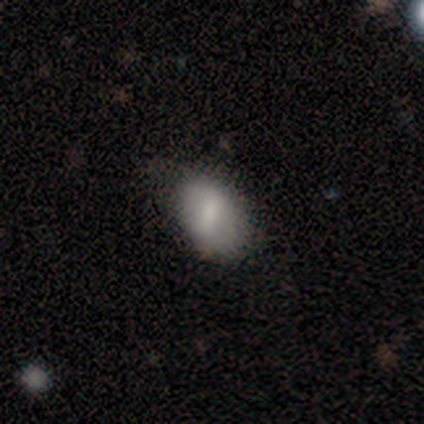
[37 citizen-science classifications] smooth-or-featured: smooth: 73% | featured or disk: 16% | star or artifact: 11%
  how-rounded: in between: 89% | round: 11% | cigar-shaped: 0%
  merging: none: 52% | minor disturbance: 42% | major disturbance: 3% | merger: 3%